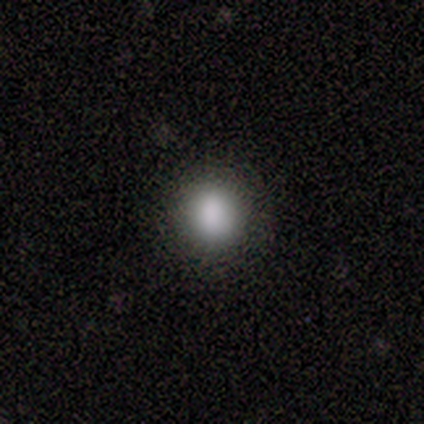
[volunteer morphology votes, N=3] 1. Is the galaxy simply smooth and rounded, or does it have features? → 67% smooth, 33% star or artifact, 0% featured or disk.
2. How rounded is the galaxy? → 100% round, 0% in between, 0% cigar-shaped.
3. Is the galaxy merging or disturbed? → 50% none (tied), 50% minor disturbance (tied), 0% major disturbance, 0% merger.